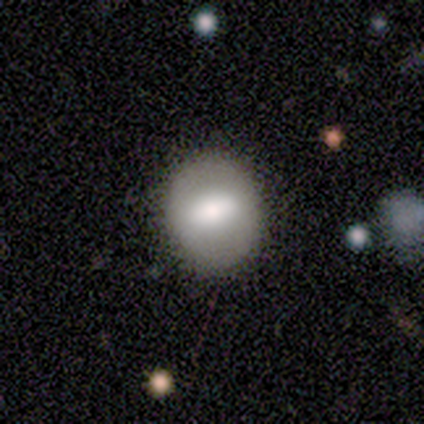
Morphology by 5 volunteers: Volunteers were most divided on "how rounded": in between: 60%, round: 40%, cigar-shaped: 0%. More confident: smooth or featured — smooth (100%); merging — none (60%).